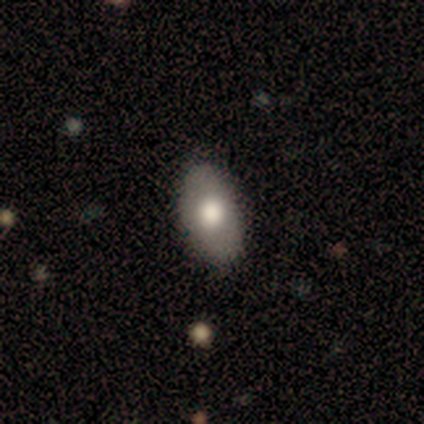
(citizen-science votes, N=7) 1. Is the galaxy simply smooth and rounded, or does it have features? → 71% smooth, 29% featured or disk, 0% star or artifact.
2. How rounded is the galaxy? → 100% in between, 0% round, 0% cigar-shaped.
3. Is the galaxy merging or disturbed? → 100% none, 0% minor disturbance, 0% major disturbance, 0% merger.